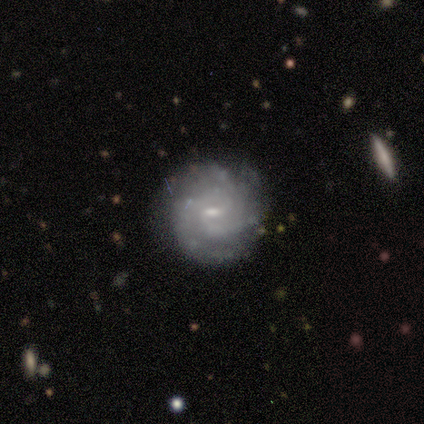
smooth_or_featured: featured or disk (p=1.00)
disk_edge_on: no (p=1.00)
bar: weak (p=0.60) [alt: no p=0.40]
has_spiral_arms: yes (p=1.00)
spiral_winding: tight (p=0.80) [alt: medium p=0.20]
spiral_arm_count: 3 (p=0.40) [tied with: can't tell p=0.40]
bulge_size: moderate (p=0.60) [alt: small p=0.40]
merging: none (p=0.80) [alt: minor disturbance p=0.20]